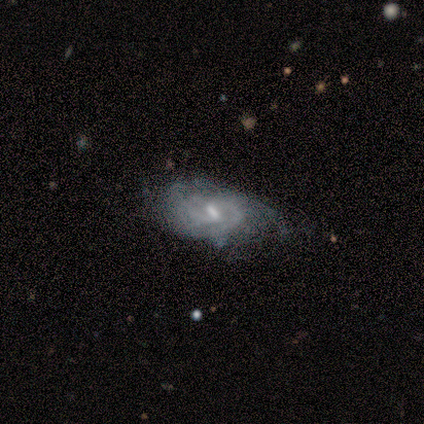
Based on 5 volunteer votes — Smooth or featured?
  - featured or disk: 100% *
  - smooth: 0%
  - star or artifact: 0%
Edge-on disk?
  - no: 100% *
  - yes: 0%
Bar?
  - weak: 60% *
  - strong: 20%
  - no: 20%
Spiral arms?
  - yes: 100% *
  - no: 0%
Spiral winding?
  - medium: 60% *
  - tight: 40%
  - loose: 0%
Spiral arm count?
  - 2: 100% *
  - 1: 0%
  - 3: 0%
  - 4: 0%
  - more than 4: 0%
  - can't tell: 0%
Bulge size?
  - small: 80% *
  - none: 20%
  - dominant: 0%
  - large: 0%
  - moderate: 0%
Merging?
  - none: 40% * (tied)
  - minor disturbance: 40% * (tied)
  - major disturbance: 20%
  - merger: 0%